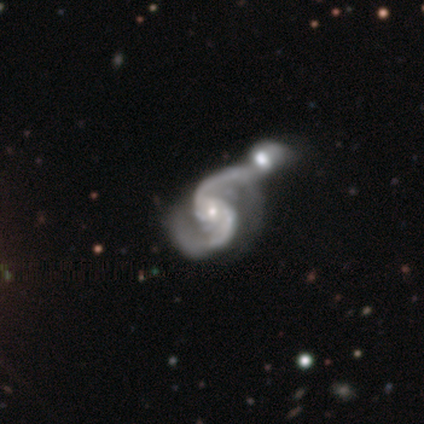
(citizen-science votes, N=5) This is clearly a featured or disk galaxy (100%). It is clearly not viewed edge-on (100%). Bar: clearly no (100%). Spiral arm pattern: clearly yes (100%). Spiral arm count: clearly 2 (100%). Spiral winding: likely tight (60%). Central bulge: clearly small (100%). Merging: clearly merger (100%).